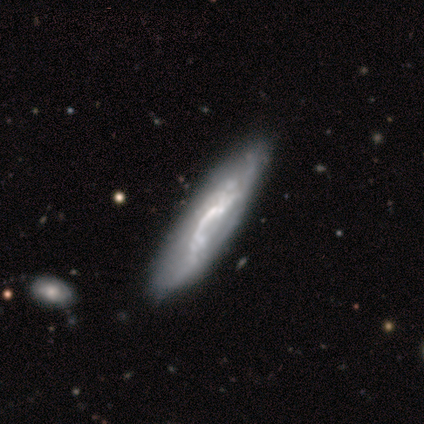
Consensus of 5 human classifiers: A featured or disk galaxy (80%) with a strong bar (33%, tied with weak and no), no spiral arms (100%) and no central bulge (67%). Merging: none (40%, tied with minor disturbance).